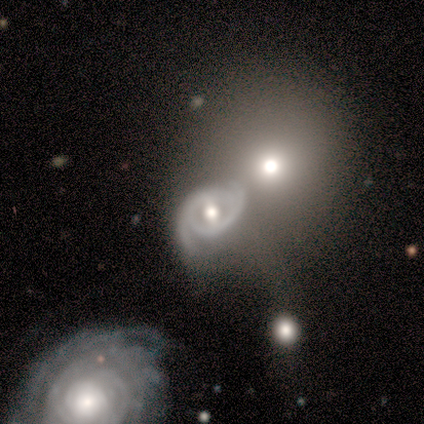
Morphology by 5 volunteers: A featured or disk galaxy (80%) with a weak bar (50%), 2 (100%) tight (50%, tied with loose) spiral arms (100%) and a moderate central bulge (75%).

Vote fractions:
- Smooth or featured? featured or disk: 80% / smooth: 20% / star or artifact: 0%
- Edge-on disk? no: 100% / yes: 0%
- Bar? weak: 50% / strong: 25% / no: 25%
- Spiral arms? yes: 100% / no: 0%
- Spiral winding? tight: 50% (tied) / loose: 50% (tied) / medium: 0%
- Spiral arm count? 2: 100% / 1: 0% / 3: 0% / 4: 0% / more than 4: 0% / can't tell: 0%
- Bulge size? moderate: 75% / small: 25% / dominant: 0% / large: 0% / none: 0%
- Merging? none: 60% / minor disturbance: 20% / merger: 20% / major disturbance: 0%